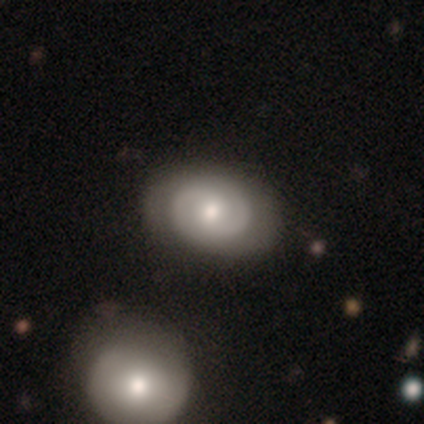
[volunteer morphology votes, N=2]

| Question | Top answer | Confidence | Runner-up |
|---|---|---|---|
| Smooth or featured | smooth | 50% | tied: featured or disk (50%) |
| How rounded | in between | 100% | — |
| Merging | none | 100% | — |